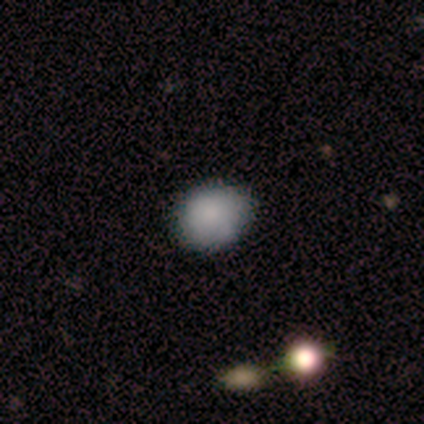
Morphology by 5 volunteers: smooth-or-featured: smooth: 60% | featured or disk: 20% | star or artifact: 20%
  how-rounded: in between: 67% | round: 33% | cigar-shaped: 0%
  merging: none: 75% | minor disturbance: 25% | major disturbance: 0% | merger: 0%